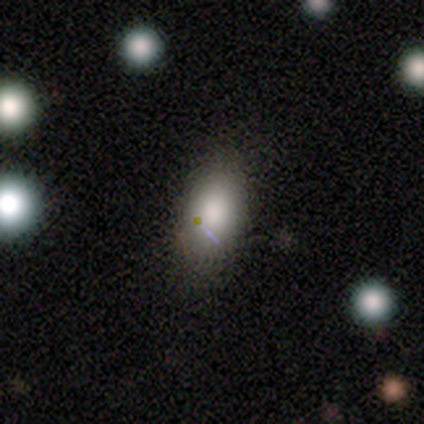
Morphology: type=smooth (81%); roundness=in between (100%); merging=none (80%).